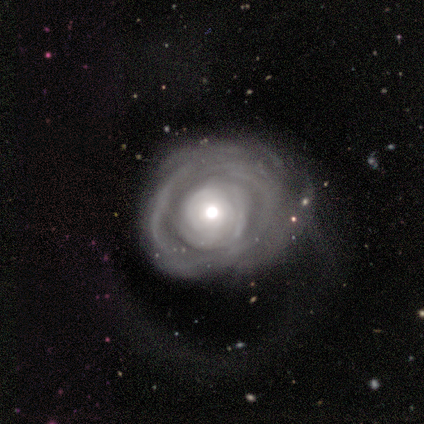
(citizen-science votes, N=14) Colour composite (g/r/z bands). It shows a featured or disk galaxy (100%) with no bar (100%), no spiral arms (58%) and a moderate central bulge (75%). Merging: none (36%, tied with minor disturbance).